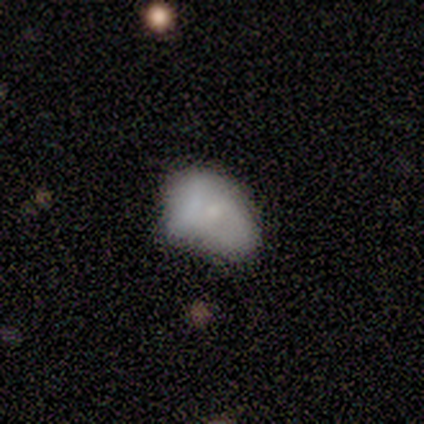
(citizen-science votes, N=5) Smooth or featured: smooth — 60% (featured or disk — 20%)
How rounded: in between — 100%
Merging: none — 75% (minor disturbance — 25%)